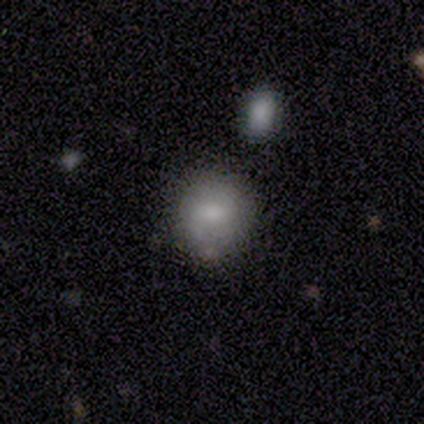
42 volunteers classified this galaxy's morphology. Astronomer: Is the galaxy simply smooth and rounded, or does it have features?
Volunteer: smooth — 67%.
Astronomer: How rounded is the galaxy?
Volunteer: round — 93%.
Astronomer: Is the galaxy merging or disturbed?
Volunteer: none — 78%.